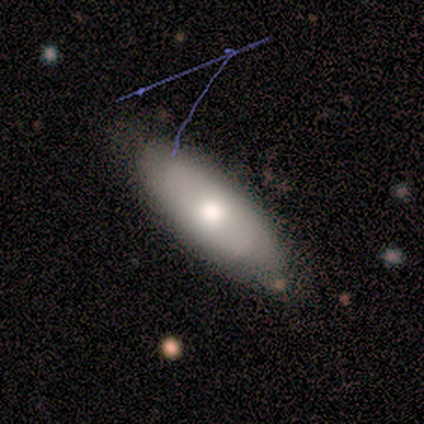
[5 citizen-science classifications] smooth_or_featured: smooth (p=1.00)
how_rounded: in between (p=0.80) [alt: cigar-shaped p=0.20]
merging: none (p=0.60) [alt: minor disturbance p=0.40]